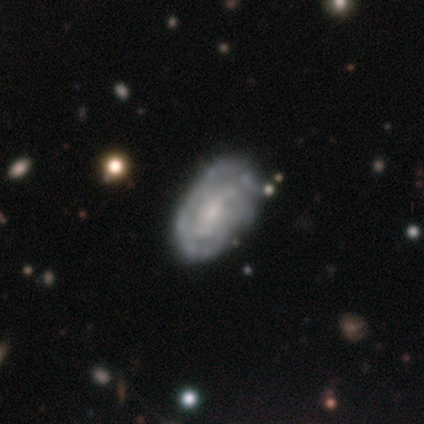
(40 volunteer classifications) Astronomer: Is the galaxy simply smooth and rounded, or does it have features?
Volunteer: featured or disk — 78%.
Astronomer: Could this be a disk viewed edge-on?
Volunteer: no — 100%.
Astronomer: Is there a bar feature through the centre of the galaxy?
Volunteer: no — 55% (runner-up: weak, 42%).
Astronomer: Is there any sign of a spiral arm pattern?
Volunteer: yes — 81%.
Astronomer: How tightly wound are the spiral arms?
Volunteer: tight — 60%.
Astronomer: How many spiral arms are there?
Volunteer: can't tell — 60%.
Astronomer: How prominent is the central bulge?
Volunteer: small — 65%.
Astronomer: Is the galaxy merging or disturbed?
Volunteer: none — 54% (runner-up: minor disturbance, 41%).